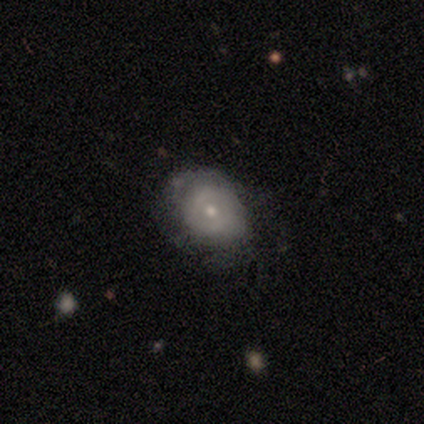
This appears to be a featured or disk galaxy (51%) with no bar (82%), no spiral arms (75%) and a small central bulge (70%). Merging: none (37%).